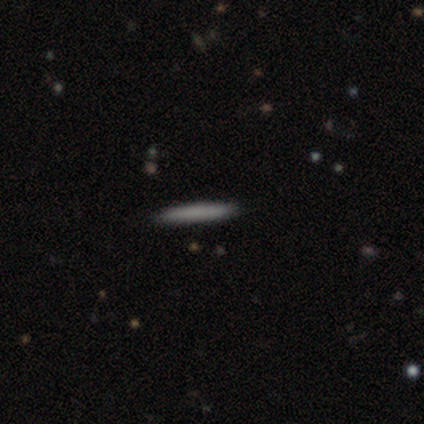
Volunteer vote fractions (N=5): smooth-or-featured: smooth: 60% | featured or disk: 20% | star or artifact: 20%
  how-rounded: cigar-shaped: 100% | round: 0% | in between: 0%
  merging: none: 100% | minor disturbance: 0% | major disturbance: 0% | merger: 0%